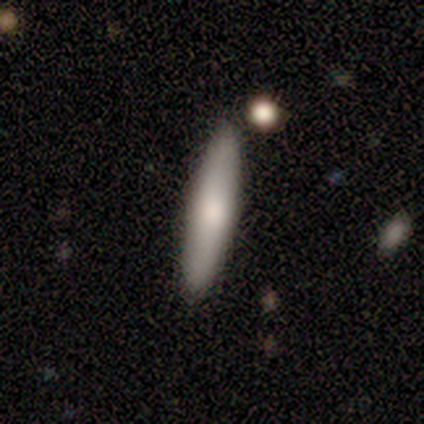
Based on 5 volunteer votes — This is likely a smooth galaxy (60%). How rounded: clearly cigar-shaped (100%). Merging: clearly none (80%).